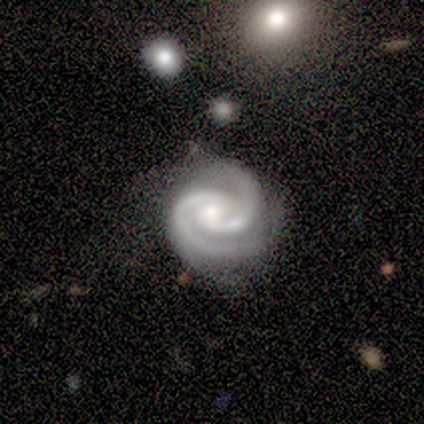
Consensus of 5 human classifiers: A featured or disk galaxy (100%) with no bar (60%), 2 (100%) tight (60%) spiral arms (100%) and a small central bulge (80%). Merging: none (80%).